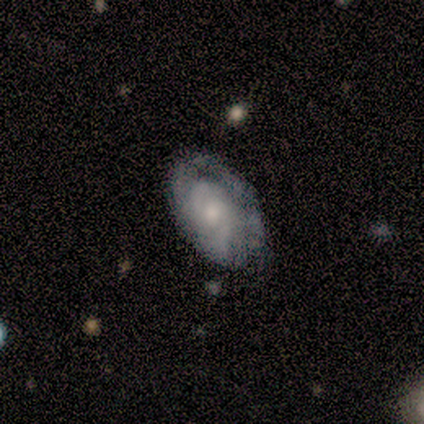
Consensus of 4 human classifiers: Morphology: type=featured or disk (75%); edge-on=no (67%); bar=no (100%); spiral arms=yes (100%); winding=tight (50%, tied with medium); arm count=3 (50%, tied with can't tell); bulge=moderate (50%, tied with small); merging=none (100%).